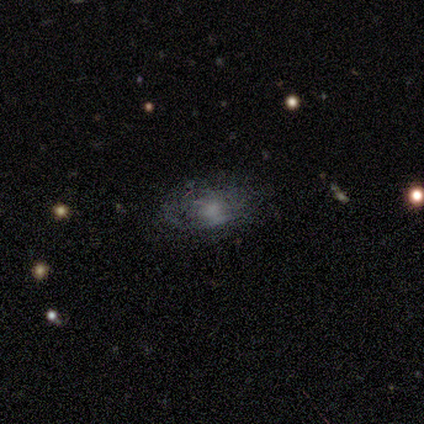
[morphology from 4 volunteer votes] smooth_or_featured: featured or disk (p=0.50) [tied with: star or artifact p=0.50]
disk_edge_on: no (p=1.00)
bar: no (p=1.00)
has_spiral_arms: yes (p=0.50) [tied with: no p=0.50]
spiral_winding: tight (p=1.00)
spiral_arm_count: can't tell (p=1.00)
bulge_size: moderate (p=0.50) [tied with: small p=0.50]
merging: none (p=1.00)